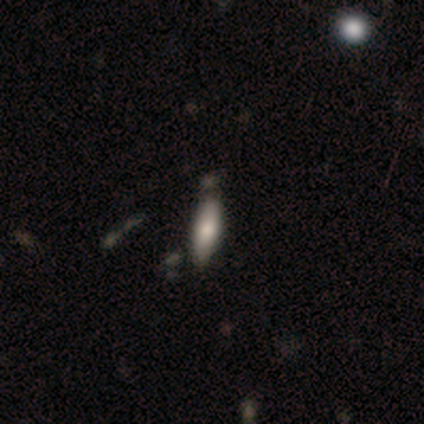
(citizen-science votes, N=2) A smooth galaxy with no disk features (50%, tied with featured or disk) that is cigar-shaped (100%). Merging: none (50%, tied with minor disturbance).